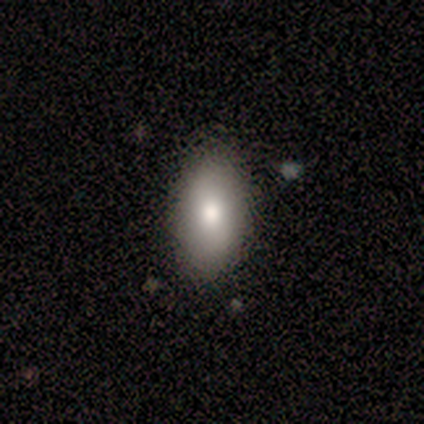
Smooth or featured? 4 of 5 (80%) said smooth. How rounded? 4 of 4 (100%) said in between. Merging? 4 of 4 (100%) said none.